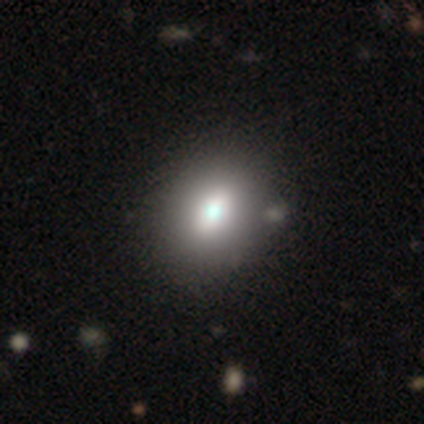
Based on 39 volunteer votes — smooth_or_featured: smooth (p=0.69) [alt: featured or disk p=0.23]
how_rounded: in between (p=0.67) [alt: round p=0.33]
merging: none (p=0.67) [alt: minor disturbance p=0.14]